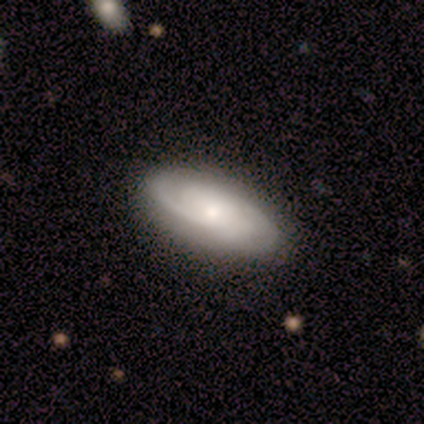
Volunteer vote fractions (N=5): Morphology: type=featured or disk (60%); edge-on=no (100%); bar=no (100%); spiral arms=yes (100%); winding=medium (67%); arm count=2 (67%); bulge=small (100%); merging=none (100%).